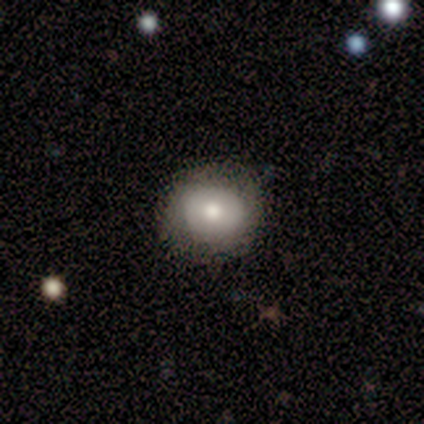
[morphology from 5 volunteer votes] Smooth or featured? smooth (100%)
How rounded? round (80%)
Merging? none (100%)